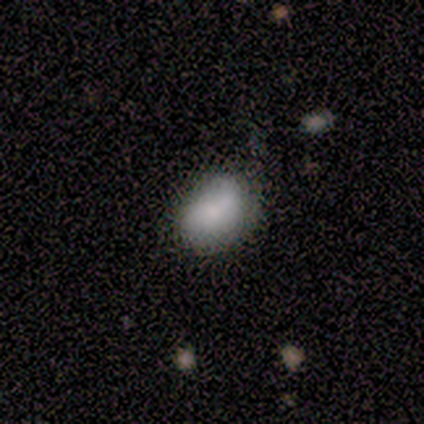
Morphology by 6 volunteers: Smooth or featured? smooth (83%)
How rounded? in between (100%)
Merging? none (67%)